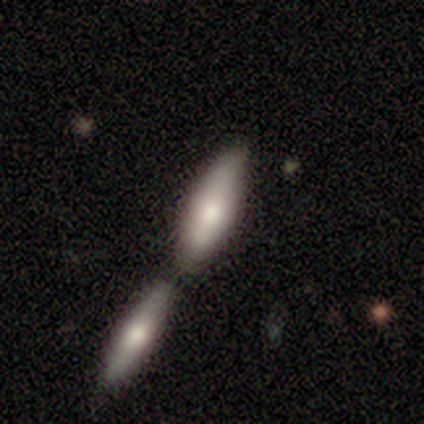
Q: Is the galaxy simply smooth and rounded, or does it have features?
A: smooth — 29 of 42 (69%).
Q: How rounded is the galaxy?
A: cigar-shaped — 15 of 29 (52%).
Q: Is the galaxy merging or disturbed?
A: merger — 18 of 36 (50%).